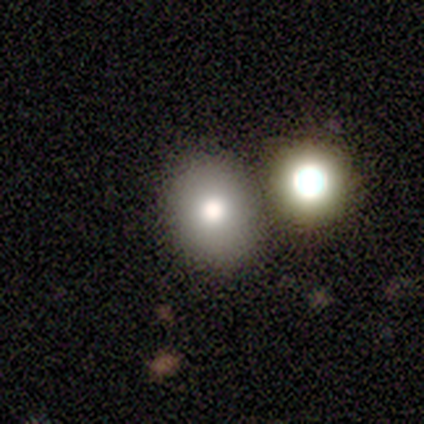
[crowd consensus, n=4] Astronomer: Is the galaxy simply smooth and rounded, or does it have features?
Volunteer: smooth — 50%.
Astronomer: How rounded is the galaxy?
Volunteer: round — 50%, tied with in between at 50%.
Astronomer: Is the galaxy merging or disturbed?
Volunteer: none — 100%.